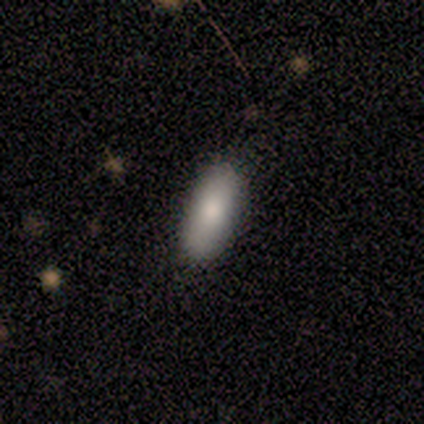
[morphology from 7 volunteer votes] This appears to be a smooth galaxy with no disk features (86%) that is in between round and cigar-shaped (83%). Merging: none (83%).